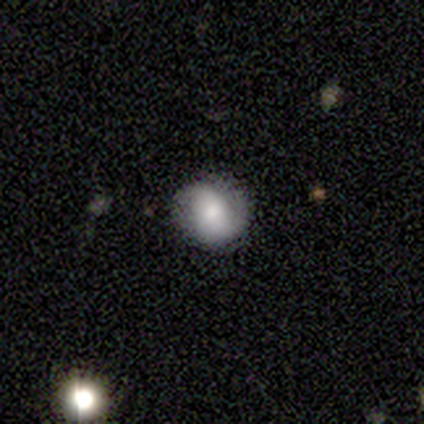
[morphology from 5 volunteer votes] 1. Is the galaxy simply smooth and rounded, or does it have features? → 60% smooth, 40% featured or disk, 0% star or artifact.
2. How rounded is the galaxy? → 67% round, 33% in between, 0% cigar-shaped.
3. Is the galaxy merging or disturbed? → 80% none, 20% major disturbance, 0% minor disturbance, 0% merger.